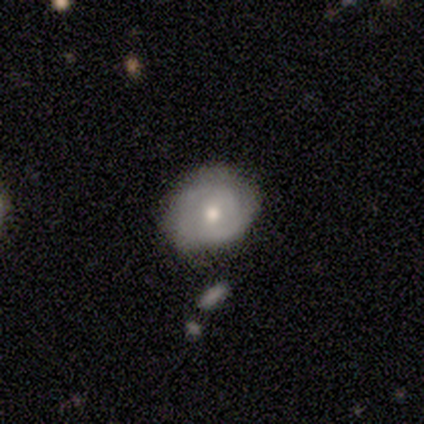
Smooth or featured? featured or disk (60%)
Edge-on disk? no (100%)
Bar? no (67%)
Spiral arms? yes (67%)
Spiral winding? tight (50%, tied with medium)
Spiral arm count? 2 (50%, tied with 3)
Bulge size? moderate (67%)
Merging? none (80%)